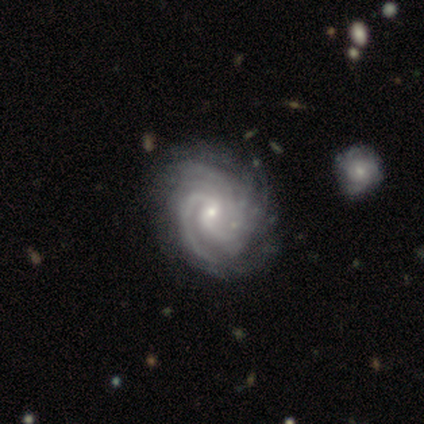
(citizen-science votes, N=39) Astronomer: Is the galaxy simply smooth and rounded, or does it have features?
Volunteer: featured or disk — 100%.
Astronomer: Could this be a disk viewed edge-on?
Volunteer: no — 100%.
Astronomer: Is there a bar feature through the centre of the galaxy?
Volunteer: no — 51% (runner-up: weak, 41%).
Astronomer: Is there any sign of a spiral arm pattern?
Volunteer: yes — 97%.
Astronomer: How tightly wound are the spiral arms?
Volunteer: tight — 68%.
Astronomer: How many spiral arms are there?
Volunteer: can't tell — 24% (runner-up: 3, 21%).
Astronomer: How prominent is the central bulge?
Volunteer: small — 74%.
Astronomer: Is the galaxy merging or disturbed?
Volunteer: none — 49%.